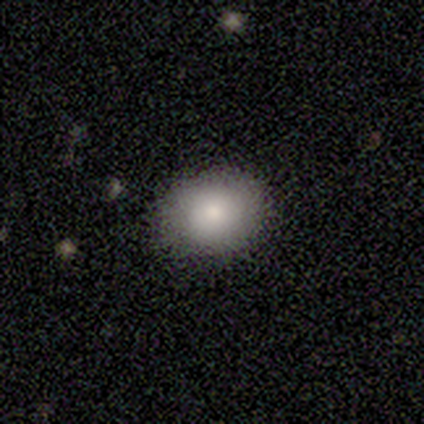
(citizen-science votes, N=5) smooth-or-featured: smooth: 100% | featured or disk: 0% | star or artifact: 0%
  how-rounded: round: 60% | in between: 40% | cigar-shaped: 0%
  merging: none: 100% | minor disturbance: 0% | major disturbance: 0% | merger: 0%